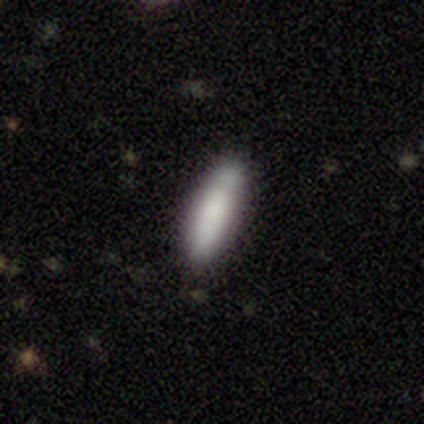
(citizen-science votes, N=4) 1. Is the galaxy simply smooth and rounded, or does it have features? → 100% smooth, 0% featured or disk, 0% star or artifact.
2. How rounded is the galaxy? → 50% in between (tied), 50% cigar-shaped (tied), 0% round.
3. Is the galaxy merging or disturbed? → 100% none, 0% minor disturbance, 0% major disturbance, 0% merger.